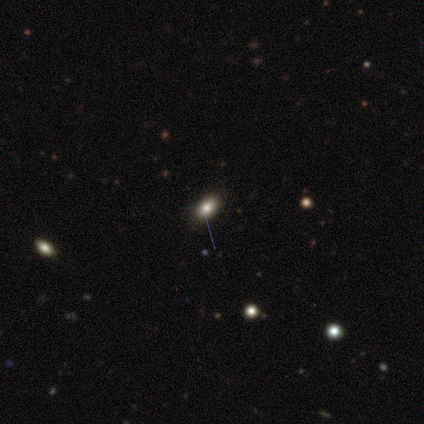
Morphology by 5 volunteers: Smooth or featured? smooth (80%)
How rounded? in between (100%)
Merging? none (75%)